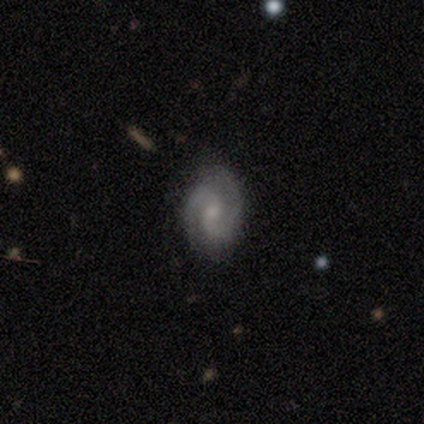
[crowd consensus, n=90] Q: Smooth or featured?
A: featured or disk (84%); runner-up: smooth (12%)
Q: Edge-on disk?
A: no (97%); runner-up: yes (3%)
Q: Bar?
A: no (58%); runner-up: weak (38%)
Q: Spiral arms?
A: yes (96%); runner-up: no (4%)
Q: Spiral winding?
A: medium (55%); runner-up: tight (37%)
Q: Spiral arm count?
A: 2 (86%); runner-up: 3 (8%)
Q: Bulge size?
A: small (59%); runner-up: moderate (31%)
Q: Merging?
A: none (86%); runner-up: minor disturbance (7%)